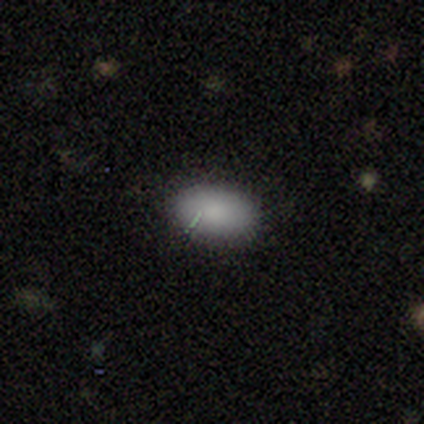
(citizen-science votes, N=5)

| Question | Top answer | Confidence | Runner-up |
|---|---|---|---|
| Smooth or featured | smooth | 60% | star or artifact (40%) |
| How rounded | in between | 100% | — |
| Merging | none | 100% | — |